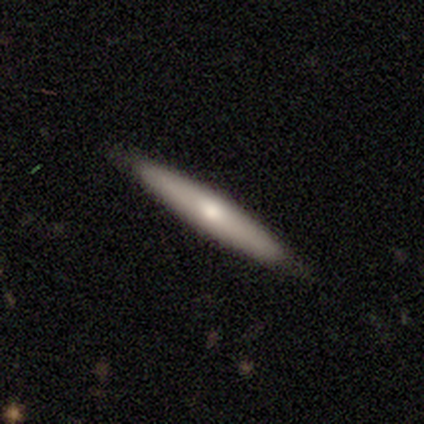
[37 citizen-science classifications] smooth_or_featured: featured or disk (p=0.57) [alt: smooth p=0.41]
disk_edge_on: yes (p=0.76) [alt: no p=0.24]
edge_on_bulge: rounded (p=0.56) [alt: none p=0.44]
merging: none (p=0.94) [alt: minor disturbance p=0.06]